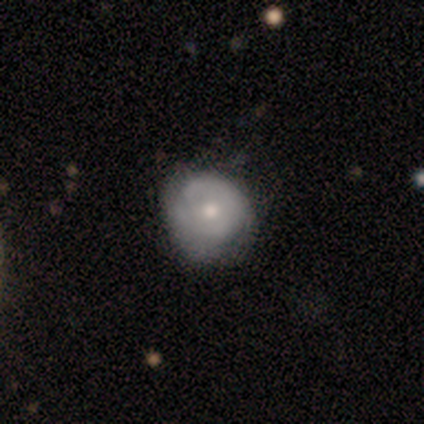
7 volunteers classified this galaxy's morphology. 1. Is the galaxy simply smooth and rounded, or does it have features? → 57% featured or disk, 29% smooth, 14% star or artifact.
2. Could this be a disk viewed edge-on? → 100% no, 0% yes.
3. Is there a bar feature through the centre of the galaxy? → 100% no, 0% strong, 0% weak.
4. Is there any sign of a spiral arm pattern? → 100% no, 0% yes.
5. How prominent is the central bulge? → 50% moderate, 25% small, 25% none, 0% dominant, 0% large.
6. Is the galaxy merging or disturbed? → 67% minor disturbance, 17% none, 17% major disturbance, 0% merger.